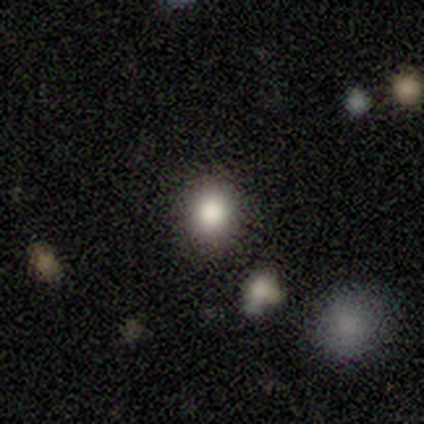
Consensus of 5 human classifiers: smooth-or-featured: smooth: 100% | featured or disk: 0% | star or artifact: 0%
  how-rounded: round: 100% | in between: 0% | cigar-shaped: 0%
  merging: none: 80% | minor disturbance: 20% | major disturbance: 0% | merger: 0%